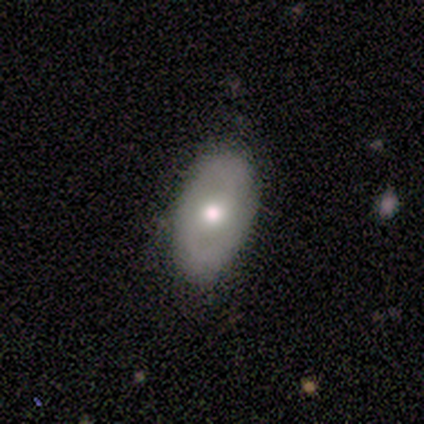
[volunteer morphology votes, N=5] Volunteers were most divided on "smooth or featured": smooth: 80%, featured or disk: 20%, star or artifact: 0%. More confident: how rounded — in between (100%); merging — none (100%).